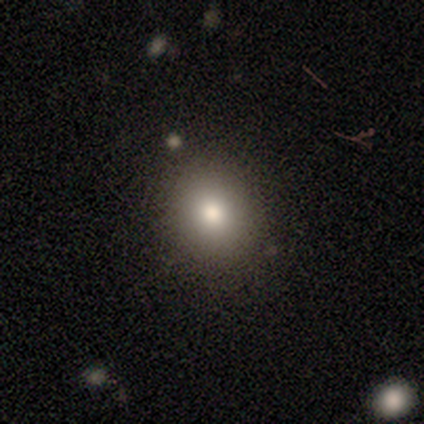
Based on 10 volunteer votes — Smooth or featured? 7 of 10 (70%) said smooth. How rounded? 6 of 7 (86%) said round. Merging? 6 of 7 (86%) said none.